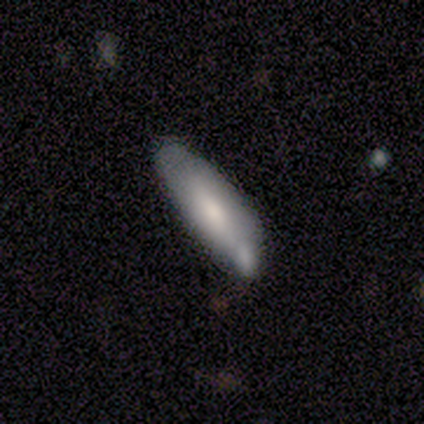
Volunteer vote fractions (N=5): Volunteers were most divided on "merging" (2-way tie): minor disturbance: 40%, merger: 40%, major disturbance: 20%, none: 0%. More confident: how rounded — in between (67%); smooth or featured — smooth (60%).